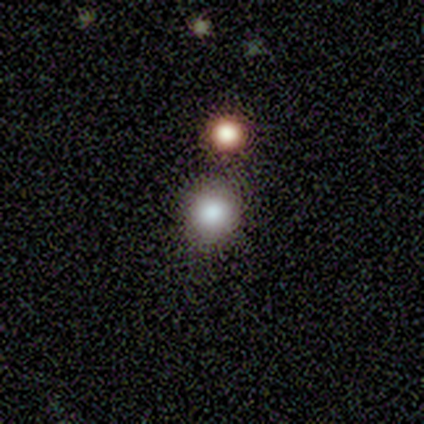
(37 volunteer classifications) Overall: smooth (68%). How rounded: round (88%). Merging: none (72%).